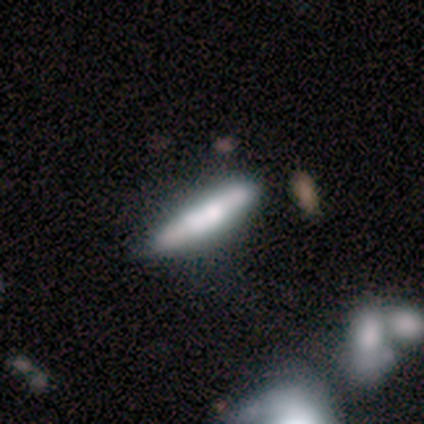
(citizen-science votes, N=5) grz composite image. It shows a featured or disk galaxy (60%) viewed edge-on (100%) with no central bulge (100%). Merging: none (80%).